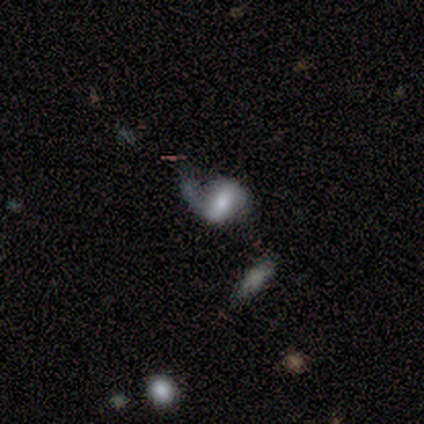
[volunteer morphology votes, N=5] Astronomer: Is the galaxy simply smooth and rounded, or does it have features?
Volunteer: featured or disk — 60% (runner-up: smooth, 40%).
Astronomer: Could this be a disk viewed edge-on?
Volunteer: no — 100%.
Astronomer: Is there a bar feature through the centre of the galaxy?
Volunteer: weak — 100%.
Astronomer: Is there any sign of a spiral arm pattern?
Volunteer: yes — 100%.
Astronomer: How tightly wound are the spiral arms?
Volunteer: loose — 67%.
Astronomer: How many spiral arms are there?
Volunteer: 2 — 67%.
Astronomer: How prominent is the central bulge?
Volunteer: small — 67%.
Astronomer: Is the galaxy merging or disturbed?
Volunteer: none — 60% (runner-up: major disturbance, 40%).